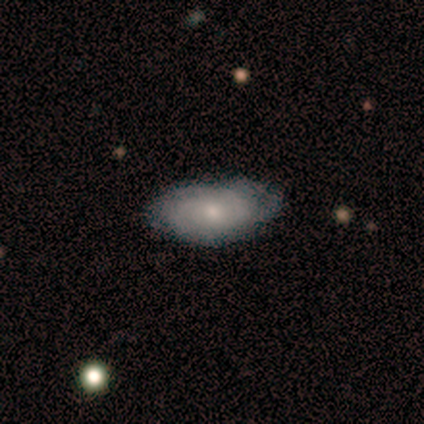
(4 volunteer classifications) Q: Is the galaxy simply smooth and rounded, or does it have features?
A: smooth — 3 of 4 (75%).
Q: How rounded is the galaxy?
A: in between — 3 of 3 (100%).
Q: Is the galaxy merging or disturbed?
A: none — 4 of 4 (100%).